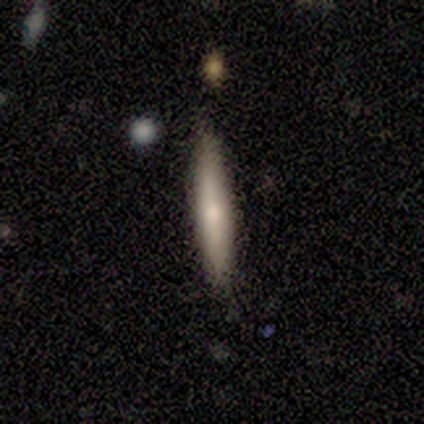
Overall: smooth (65%; featured or disk 29%). How rounded: cigar-shaped (100%). Merging: none (94%).